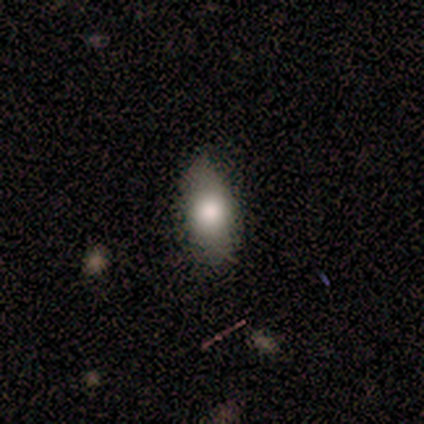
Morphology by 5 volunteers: Smooth or featured: smooth — 80% (featured or disk — 20%)
How rounded: in between — 50% (round — 25%)
Merging: none — 80% (minor disturbance — 20%)